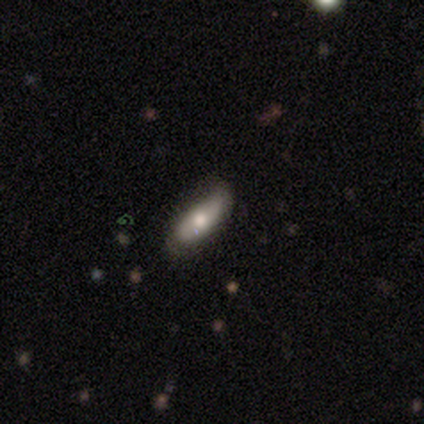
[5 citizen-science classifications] Smooth or featured: smooth — 80% (featured or disk — 20%)
How rounded: in between — 100%
Merging: none — 40% (tied with minor disturbance — 40%)